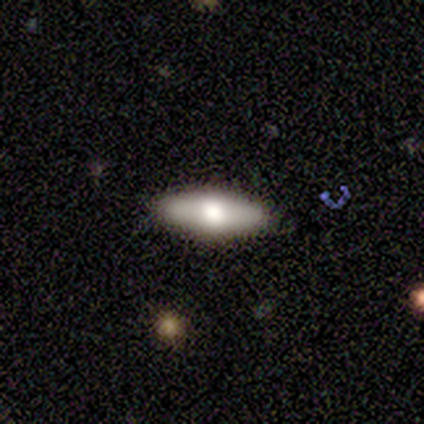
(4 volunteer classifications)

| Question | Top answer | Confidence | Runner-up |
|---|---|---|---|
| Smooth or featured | smooth | 50% | tied: featured or disk (50%) |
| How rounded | in between | 100% | — |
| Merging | none | 100% | — |